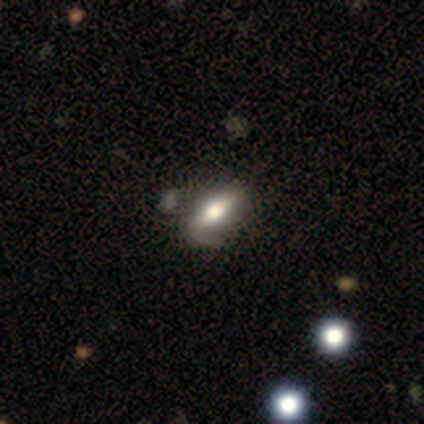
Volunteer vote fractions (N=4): Volunteers were most divided on "edge-on disk": yes: 67%, no: 33%. More confident: edge-on bulge — rounded (100%); smooth or featured — featured or disk (75%); merging — none (67%).